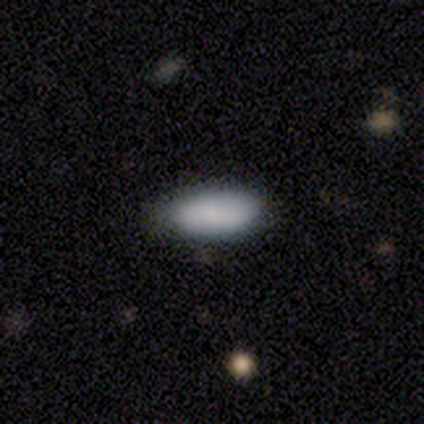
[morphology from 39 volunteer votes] This is clearly a smooth galaxy (90%). How rounded: clearly in between (83%). Merging: likely none (72%).